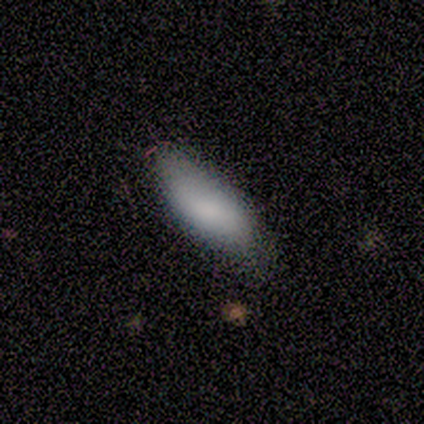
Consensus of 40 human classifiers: smooth_or_featured: smooth (p=0.68) [alt: featured or disk p=0.30]
how_rounded: in between (p=0.89) [alt: cigar-shaped p=0.11]
merging: none (p=0.51) [alt: minor disturbance p=0.26]